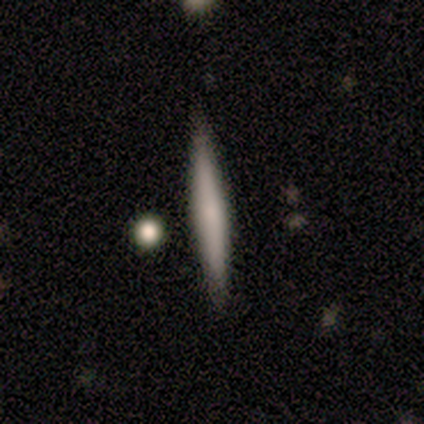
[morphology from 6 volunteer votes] Overall: smooth (83%). How rounded: cigar-shaped (100%). Merging: none (100%).